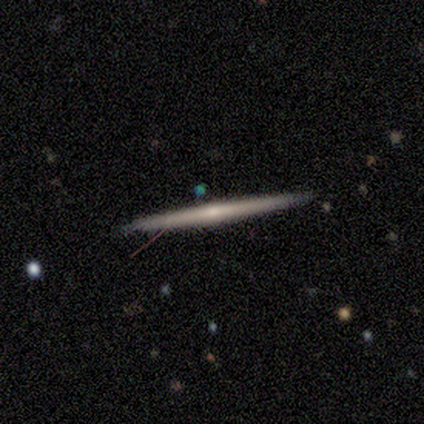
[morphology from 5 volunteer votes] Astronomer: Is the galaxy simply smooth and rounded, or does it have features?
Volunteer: featured or disk — 60% (runner-up: smooth, 40%).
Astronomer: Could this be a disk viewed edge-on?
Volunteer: yes — 100%.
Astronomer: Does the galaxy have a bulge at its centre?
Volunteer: none — 67%.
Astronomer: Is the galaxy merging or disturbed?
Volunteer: none — 100%.